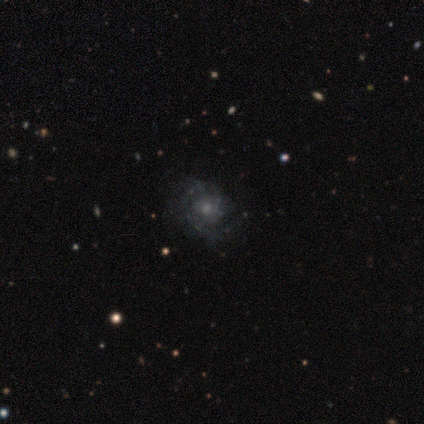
A featured or disk galaxy (83%) with no bar (100%), tight (75%) spiral arms (80%) and a small central bulge (60%). Merging: minor disturbance (67%).